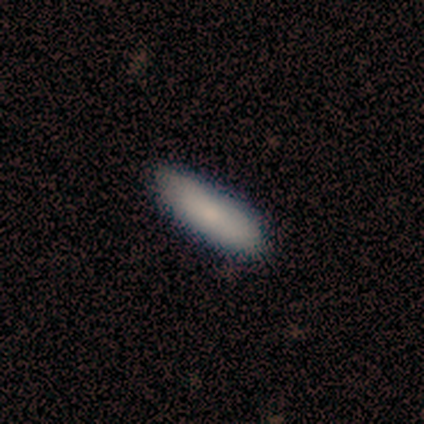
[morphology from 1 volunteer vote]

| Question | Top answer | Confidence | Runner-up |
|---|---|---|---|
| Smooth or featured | featured or disk | 100% | — |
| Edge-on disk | no | 100% | — |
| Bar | no | 100% | — |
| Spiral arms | no | 100% | — |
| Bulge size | moderate | 100% | — |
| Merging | none | 100% | — |